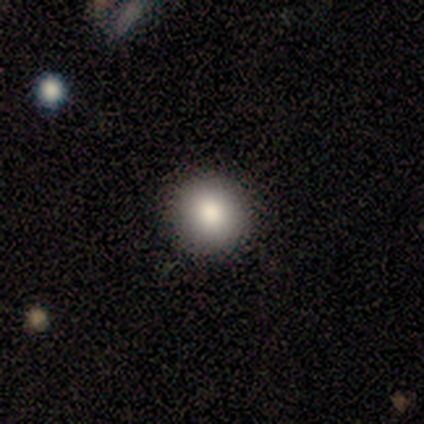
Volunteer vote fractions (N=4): A smooth galaxy with no disk features (75%) that is round (67%).

Vote fractions:
- Smooth or featured? smooth: 75% / star or artifact: 25% / featured or disk: 0%
- How rounded? round: 67% / in between: 33% / cigar-shaped: 0%
- Merging? none: 67% / major disturbance: 33% / minor disturbance: 0% / merger: 0%